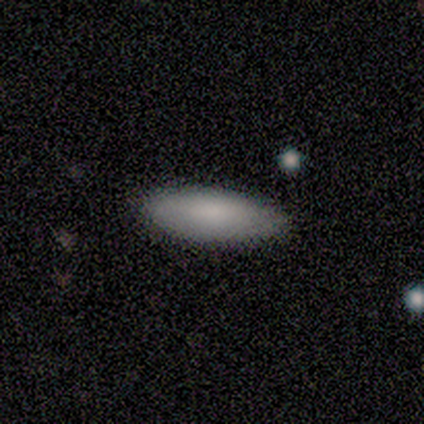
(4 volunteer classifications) Smooth or featured? smooth (100%)
How rounded? in between (50%, tied with cigar-shaped)
Merging? none (75%)